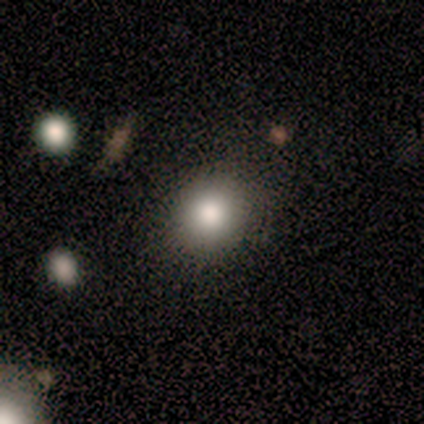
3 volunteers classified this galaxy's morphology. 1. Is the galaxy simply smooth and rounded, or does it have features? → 100% smooth, 0% featured or disk, 0% star or artifact.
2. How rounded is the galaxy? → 67% round, 33% in between, 0% cigar-shaped.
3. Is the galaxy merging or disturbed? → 67% none, 33% minor disturbance, 0% major disturbance, 0% merger.